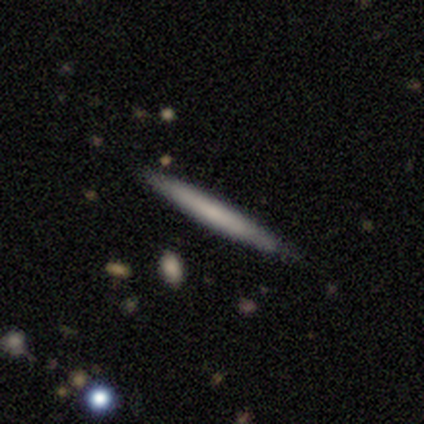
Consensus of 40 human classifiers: Morphology: type=smooth (68%); roundness=cigar-shaped (100%); merging=none (95%).